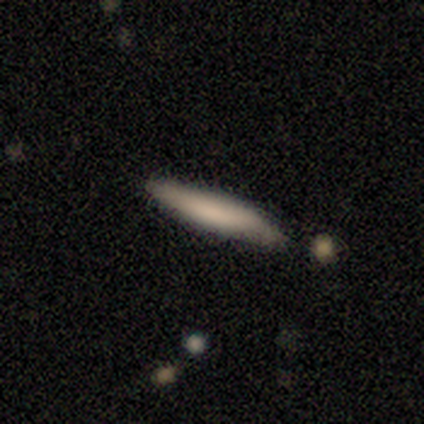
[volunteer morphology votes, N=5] This appears to be a smooth galaxy with no disk features (100%) that is cigar-shaped (100%). Merging: none (100%).